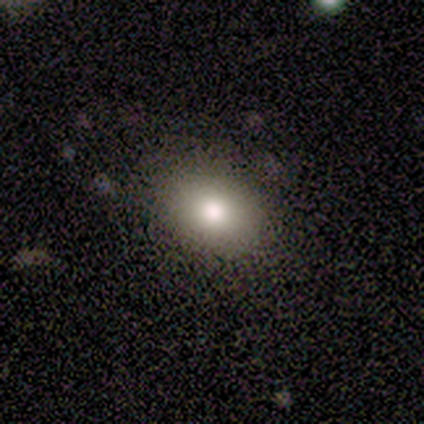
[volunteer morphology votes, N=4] This is likely a smooth galaxy (75%). How rounded: clearly in between (100%). Merging: likely none (75%).